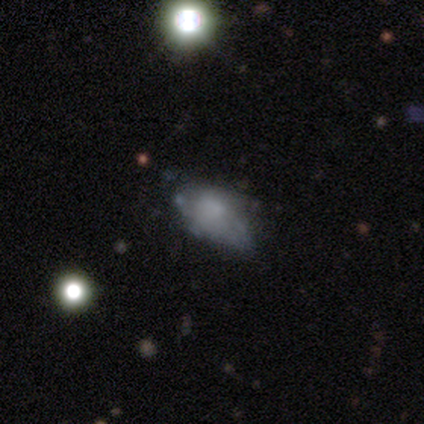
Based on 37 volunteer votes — This appears to be a featured or disk galaxy (54%) with no bar (90%), no spiral arms (75%) and no central bulge (60%). Merging: none (53%).